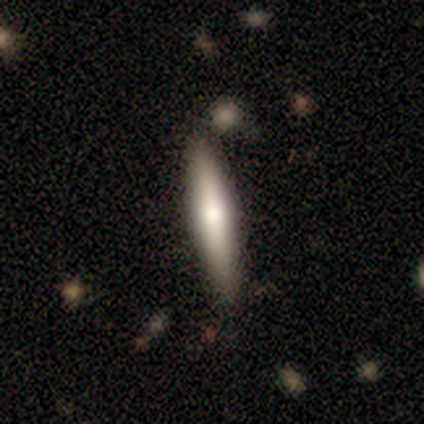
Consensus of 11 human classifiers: A smooth galaxy with no disk features (64%) that is cigar-shaped (100%). Merging: none (91%).